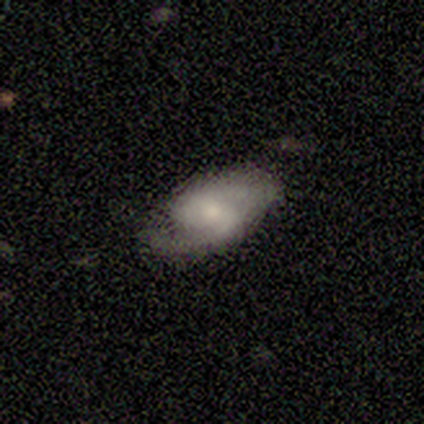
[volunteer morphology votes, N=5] smooth_or_featured: featured or disk (p=1.00)
disk_edge_on: no (p=1.00)
bar: weak (p=0.80) [alt: no p=0.20]
has_spiral_arms: yes (p=1.00)
spiral_winding: medium (p=0.80) [alt: loose p=0.20]
spiral_arm_count: 2 (p=1.00)
bulge_size: small (p=0.80) [alt: moderate p=0.20]
merging: none (p=0.80) [alt: minor disturbance p=0.20]